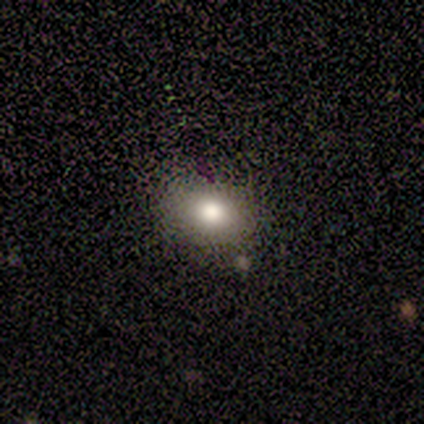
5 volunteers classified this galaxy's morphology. Volunteers were most divided on "merging": none: 80%, minor disturbance: 20%, major disturbance: 0%, merger: 0%. More confident: smooth or featured — smooth (100%); how rounded — in between (100%).